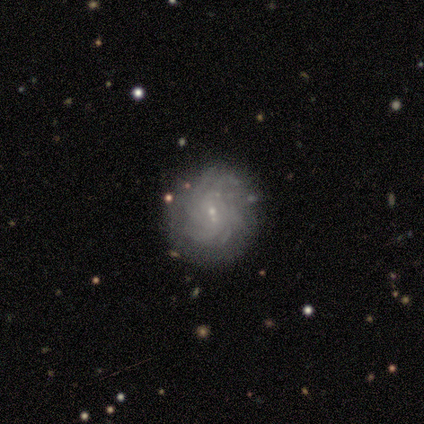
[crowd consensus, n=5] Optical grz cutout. It shows a featured or disk galaxy (80%) with a weak bar (75%), more than 4 (67%) tight (67%) spiral arms (75%) and a small central bulge (100%). Merging: none (80%).